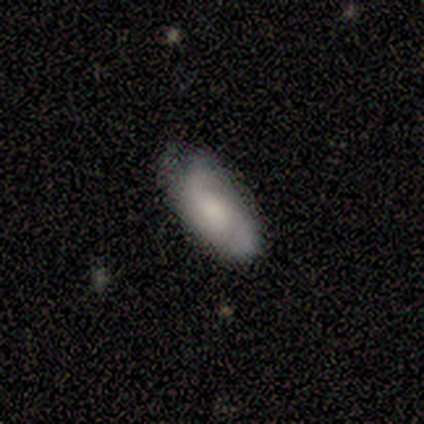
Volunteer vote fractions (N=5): Smooth or featured? 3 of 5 (60%) said featured or disk. Edge-on disk? 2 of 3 (67%) said no. Bar? 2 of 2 (100%) said weak. Spiral arms? 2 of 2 (100%) said yes. Spiral winding? 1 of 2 (50%, tied with loose) said tight. Spiral arm count? 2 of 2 (100%) said 2. Bulge size? 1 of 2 (50%, tied with none) said moderate. Merging? 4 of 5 (80%) said none.